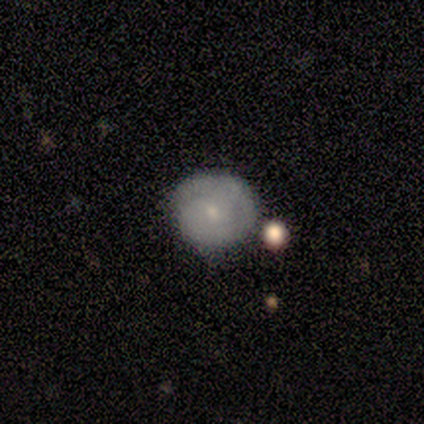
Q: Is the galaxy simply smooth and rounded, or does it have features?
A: smooth — 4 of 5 (80%).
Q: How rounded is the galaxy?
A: round — 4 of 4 (100%).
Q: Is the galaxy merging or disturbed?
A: none — 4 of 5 (80%).